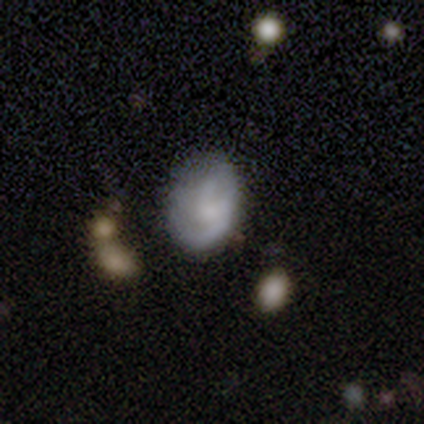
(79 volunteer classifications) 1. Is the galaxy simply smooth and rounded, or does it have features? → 56% featured or disk, 41% smooth, 4% star or artifact.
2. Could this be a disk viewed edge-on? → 98% no, 2% yes.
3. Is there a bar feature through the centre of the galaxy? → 70% no, 28% weak, 2% strong.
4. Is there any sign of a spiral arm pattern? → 77% yes, 23% no.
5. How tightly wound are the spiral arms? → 42% medium, 39% loose, 18% tight.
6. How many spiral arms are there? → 67% 2, 24% can't tell, 3% 1, 3% 3, 3% 4, 0% more than 4.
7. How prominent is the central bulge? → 37% small, 33% none, 26% moderate, 5% large, 0% dominant.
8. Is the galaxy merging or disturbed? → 26% none, 18% minor disturbance, 7% major disturbance, 1% merger.